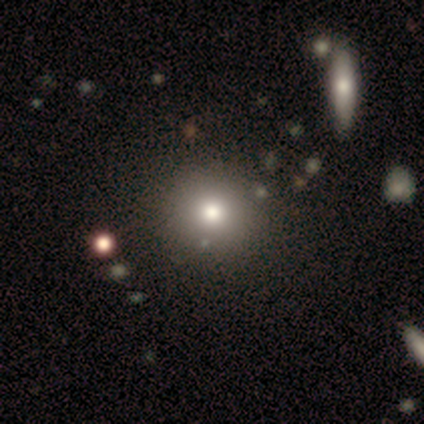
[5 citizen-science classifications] A smooth galaxy with no disk features (60%) that is round (100%). Merging: none (100%).